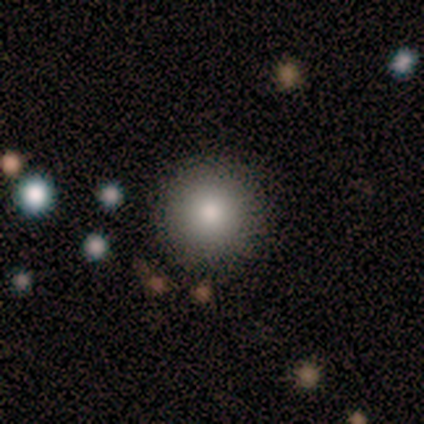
Overall: smooth (100%). How rounded: round (100%). Merging: none (100%).